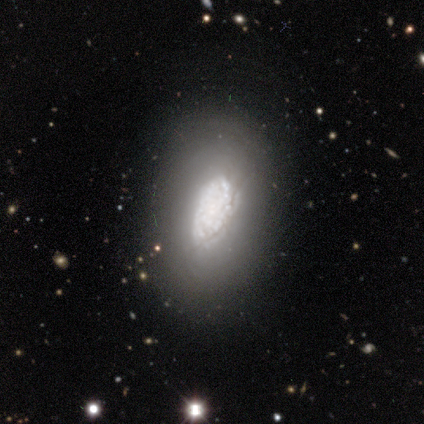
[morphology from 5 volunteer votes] Smooth or featured? featured or disk (100%)
Edge-on disk? no (100%)
Bar? no (100%)
Spiral arms? no (80%)
Bulge size? large (40%, tied with none)
Merging? none (80%)